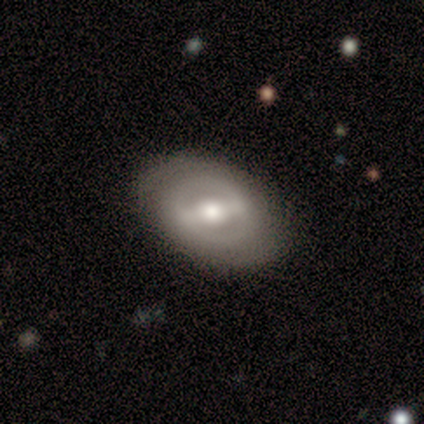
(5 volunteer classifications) smooth_or_featured: featured or disk (p=0.60) [alt: smooth p=0.40]
disk_edge_on: no (p=1.00)
bar: strong (p=1.00)
has_spiral_arms: no (p=1.00)
bulge_size: moderate (p=1.00)
merging: none (p=0.80) [alt: minor disturbance p=0.20]